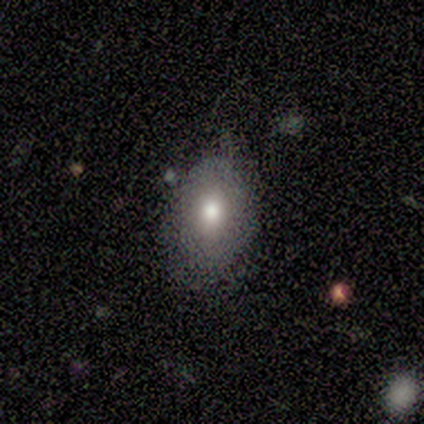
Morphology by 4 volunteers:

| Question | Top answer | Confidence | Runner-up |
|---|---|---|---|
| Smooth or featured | smooth | 50% | featured or disk (25%) |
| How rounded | in between | 100% | — |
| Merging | minor disturbance | 67% | none (33%) |